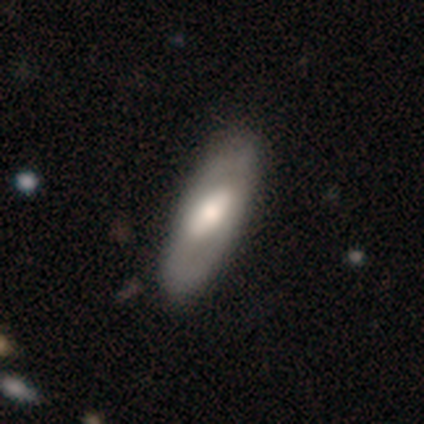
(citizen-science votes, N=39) Smooth or featured? smooth (51%)
How rounded? in between (55%)
Merging? none (86%)